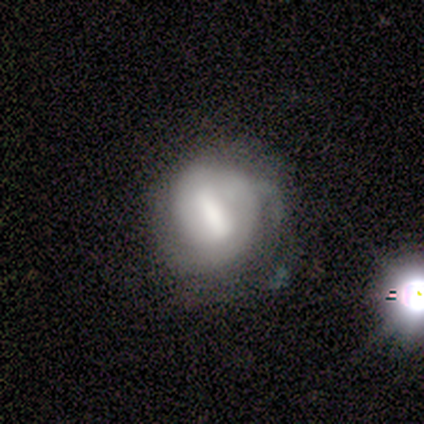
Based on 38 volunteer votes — smooth_or_featured: featured or disk (p=0.66) [alt: smooth p=0.18]
disk_edge_on: no (p=1.00)
bar: strong (p=0.64) [alt: weak p=0.20]
has_spiral_arms: yes (p=0.60) [alt: no p=0.40]
spiral_winding: tight (p=0.60) [alt: medium p=0.33]
spiral_arm_count: can't tell (p=0.40) [alt: 2 p=0.33]
bulge_size: moderate (p=0.36) [alt: large p=0.28]
merging: minor disturbance (p=0.25) [alt: major disturbance p=0.22]